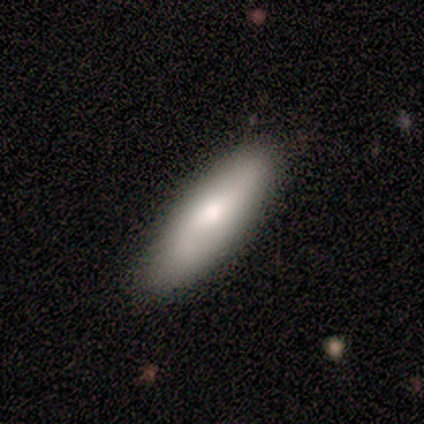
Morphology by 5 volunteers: Overall: smooth (60%; featured or disk 40%). How rounded: cigar-shaped (67%; in between 33%). Merging: none (80%).